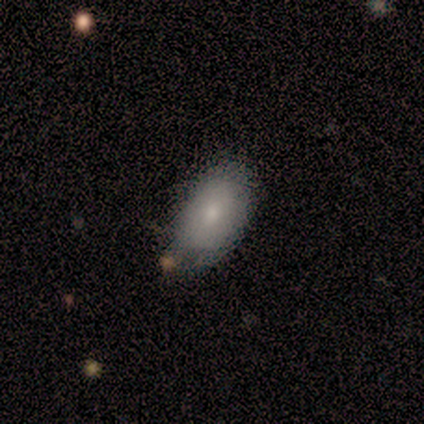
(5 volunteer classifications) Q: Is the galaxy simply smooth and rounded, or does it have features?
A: smooth — 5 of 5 (100%).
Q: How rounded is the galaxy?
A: in between — 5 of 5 (100%).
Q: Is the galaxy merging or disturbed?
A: none — 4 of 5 (80%).